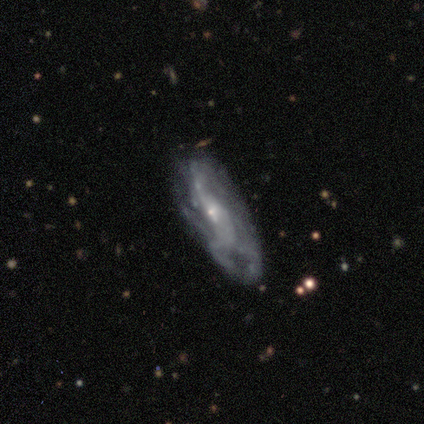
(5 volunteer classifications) Q: Smooth or featured?
A: featured or disk (80%); runner-up: smooth (20%)
Q: Edge-on disk?
A: no (100%)
Q: Bar?
A: no (75%); runner-up: weak (25%)
Q: Spiral arms?
A: yes (75%); runner-up: no (25%)
Q: Spiral winding?
A: tight (67%); runner-up: medium (33%)
Q: Spiral arm count?
A: can't tell (100%)
Q: Bulge size?
A: small (75%); runner-up: moderate (25%)
Q: Merging?
A: none (60%); runner-up: minor disturbance (40%)